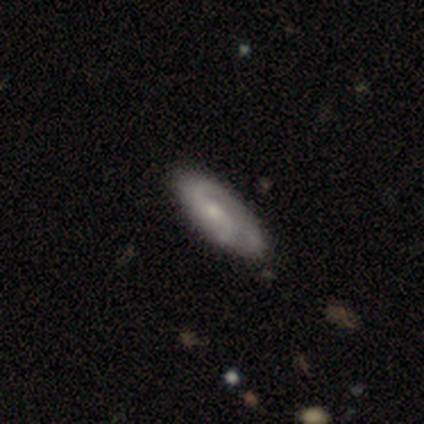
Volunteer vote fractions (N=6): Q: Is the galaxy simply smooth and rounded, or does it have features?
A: featured or disk — 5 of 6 (83%).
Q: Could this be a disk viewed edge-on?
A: no — 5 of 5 (100%).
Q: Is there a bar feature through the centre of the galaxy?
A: weak — 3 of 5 (60%).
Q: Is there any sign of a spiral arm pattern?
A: yes — 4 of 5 (80%).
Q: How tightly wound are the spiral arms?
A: tight — 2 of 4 (50%, tied with loose).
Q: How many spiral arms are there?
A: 2 — 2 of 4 (50%, tied with can't tell).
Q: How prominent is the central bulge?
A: moderate — 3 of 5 (60%).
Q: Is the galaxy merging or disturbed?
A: none — 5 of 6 (83%).